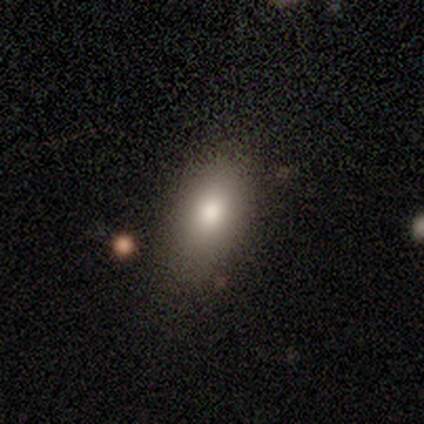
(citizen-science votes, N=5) Volunteers were most divided on "merging": none: 60%, minor disturbance: 40%, major disturbance: 0%, merger: 0%. More confident: smooth or featured — smooth (100%); how rounded — in between (80%).